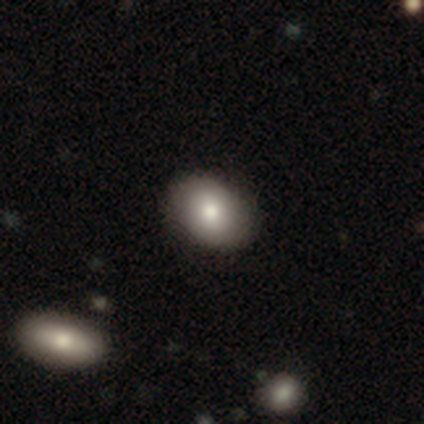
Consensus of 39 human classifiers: Smooth or featured? smooth (87%)
How rounded? in between (71%)
Merging? none (90%)